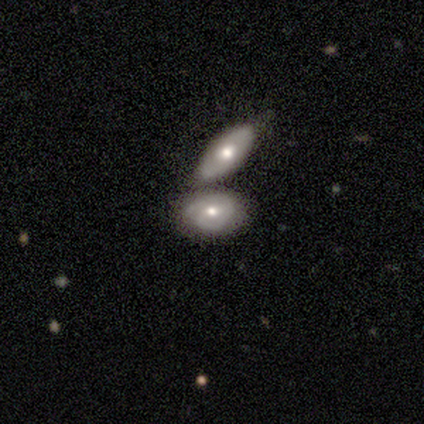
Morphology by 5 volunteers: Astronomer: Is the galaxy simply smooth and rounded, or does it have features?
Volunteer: smooth — 60% (runner-up: featured or disk, 40%).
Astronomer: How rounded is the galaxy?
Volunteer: in between — 100%.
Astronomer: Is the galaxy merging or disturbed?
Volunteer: none — 80%.